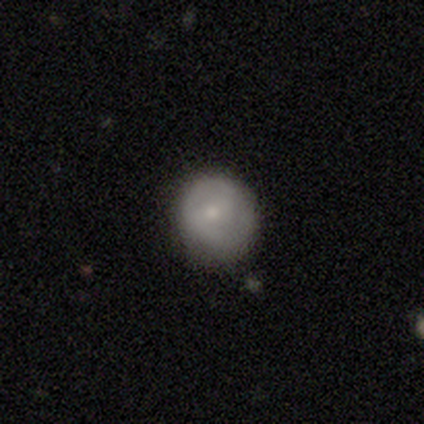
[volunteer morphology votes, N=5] A smooth galaxy with no disk features (60%) that is round (67%).

Vote fractions:
- Smooth or featured? smooth: 60% / featured or disk: 40% / star or artifact: 0%
- How rounded? round: 67% / in between: 33% / cigar-shaped: 0%
- Merging? none: 80% / major disturbance: 20% / minor disturbance: 0% / merger: 0%